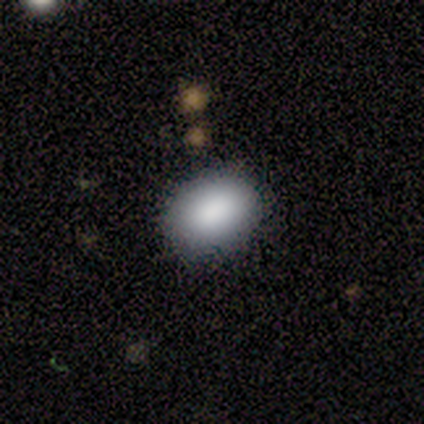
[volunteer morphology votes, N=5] smooth 100%, featured or disk 0%, star or artifact 0%. Down the decision tree: how rounded — in between (100%); merging — none (60%).